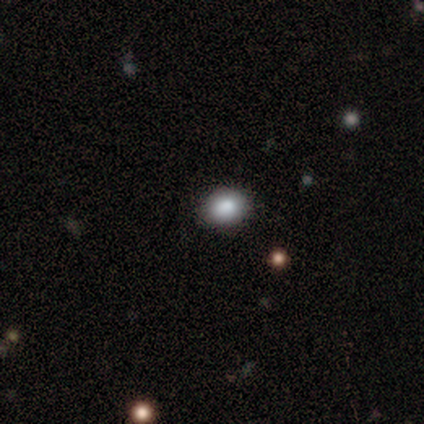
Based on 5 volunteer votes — Smooth or featured? smooth (60%)
How rounded? in between (100%)
Merging? none (100%)